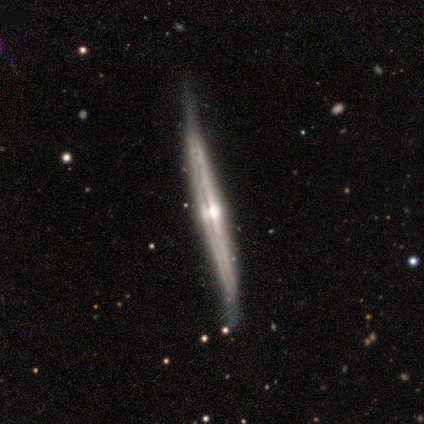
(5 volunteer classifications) Q: Smooth or featured?
A: featured or disk (100%)
Q: Edge-on disk?
A: yes (100%)
Q: Edge-on bulge?
A: rounded (80%); runner-up: none (20%)
Q: Merging?
A: none (60%); runner-up: minor disturbance (40%)